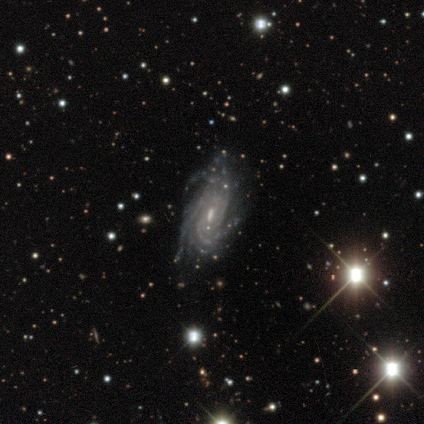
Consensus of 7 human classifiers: A featured or disk galaxy (100%) with a weak bar (43%, tied with no), more than 4 (43%, tied with can't tell) tight (86%) spiral arms (100%) and a moderate central bulge (43%, tied with small).

Vote fractions:
- Smooth or featured? featured or disk: 100% / smooth: 0% / star or artifact: 0%
- Edge-on disk? no: 100% / yes: 0%
- Bar? weak: 43% (tied) / no: 43% (tied) / strong: 14%
- Spiral arms? yes: 100% / no: 0%
- Spiral winding? tight: 86% / loose: 14% / medium: 0%
- Spiral arm count? more than 4: 43% (tied) / can't tell: 43% (tied) / 3: 14% / 1: 0% / 2: 0% / 4: 0%
- Bulge size? moderate: 43% (tied) / small: 43% (tied) / none: 14% / dominant: 0% / large: 0%
- Merging? none: 71% / minor disturbance: 14% / major disturbance: 14% / merger: 0%